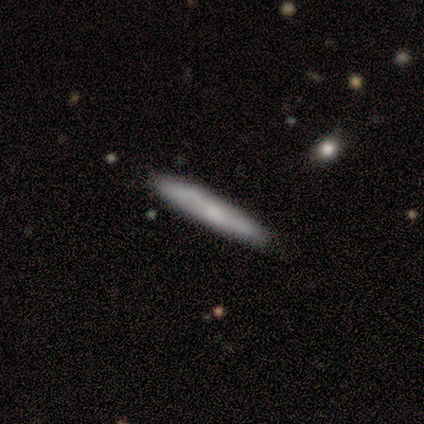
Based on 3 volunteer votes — Morphology: type=smooth (100%); roundness=cigar-shaped (100%); merging=none (100%).